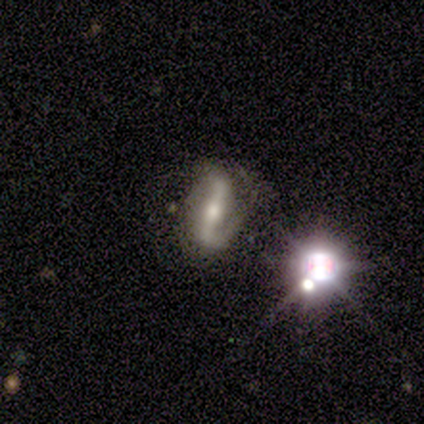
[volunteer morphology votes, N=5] This is clearly a featured or disk galaxy (80%). It is clearly not viewed edge-on (100%). Bar: likely strong (75%). Spiral arm pattern: likely yes (75%). Spiral arm count: clearly 2 (100%). Spiral winding: likely tight (67%). Central bulge: likely moderate (75%). Merging: likely none (60%).